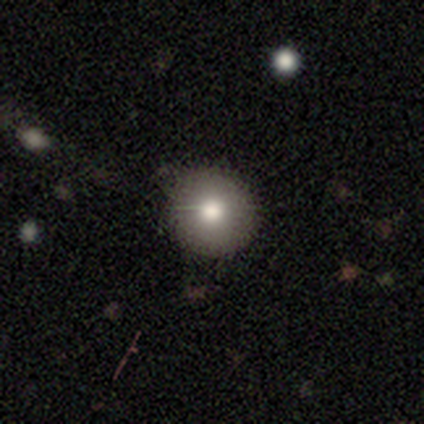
Morphology: type=smooth (76%); roundness=round (100%); merging=none (84%).